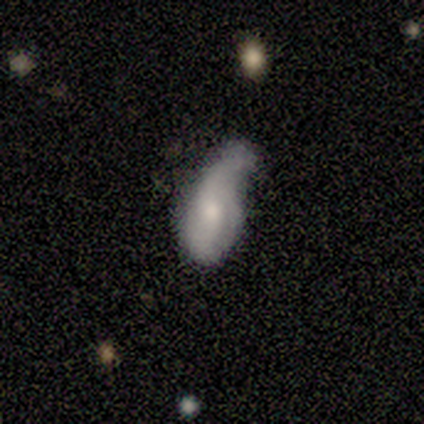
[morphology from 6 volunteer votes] This is clearly a smooth galaxy (100%). How rounded: clearly in between (100%). Merging: marginally none (33%, tied with minor disturbance and merger).